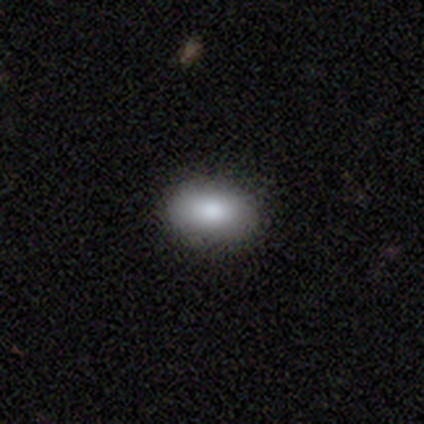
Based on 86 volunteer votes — Smooth or featured: smooth — 81% (star or artifact — 10%)
How rounded: in between — 86% (round — 11%)
Merging: none — 84% (minor disturbance — 14%)